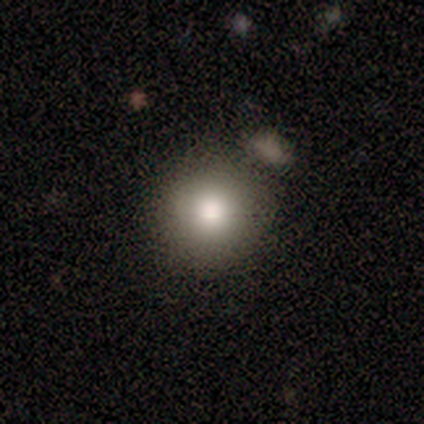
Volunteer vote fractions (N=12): A smooth galaxy with no disk features (83%) that is round (100%).

Vote fractions:
- Smooth or featured? smooth: 83% / featured or disk: 8% / star or artifact: 8%
- How rounded? round: 100% / in between: 0% / cigar-shaped: 0%
- Merging? none: 82% / major disturbance: 9% / merger: 9% / minor disturbance: 0%